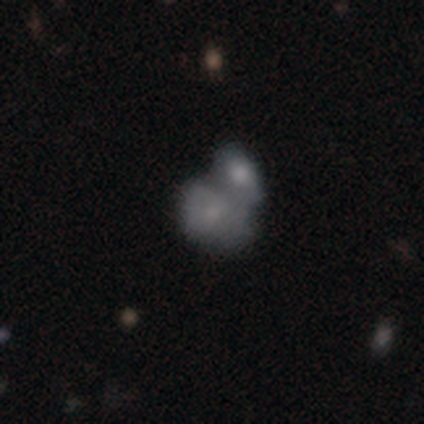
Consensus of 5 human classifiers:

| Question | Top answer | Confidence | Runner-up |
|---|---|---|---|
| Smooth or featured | smooth | 60% | featured or disk (20%) |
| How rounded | in between | 67% | round (33%) |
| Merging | merger | 100% | — |